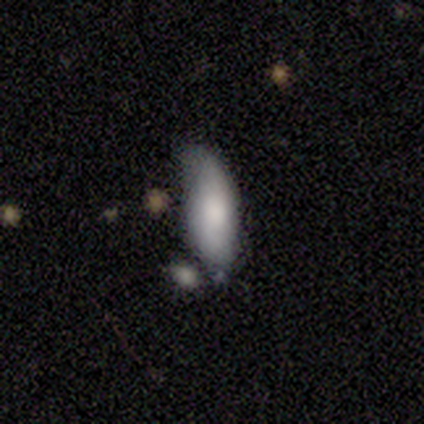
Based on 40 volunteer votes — Smooth or featured? 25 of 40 (62%) said smooth. How rounded? 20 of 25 (80%) said in between. Merging? 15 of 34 (44%) said minor disturbance.